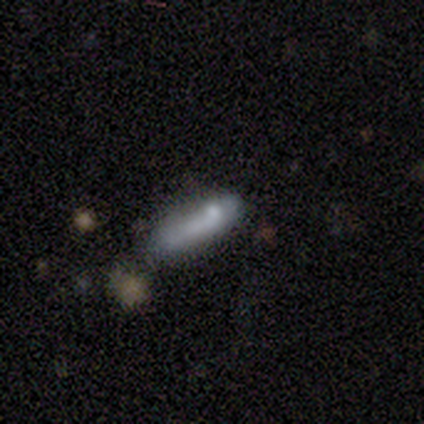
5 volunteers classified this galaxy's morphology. smooth-or-featured: smooth: 80% | featured or disk: 20% | star or artifact: 0%
  how-rounded: in between: 75% | cigar-shaped: 25% | round: 0%
  merging: none: 80% | minor disturbance: 20% | major disturbance: 0% | merger: 0%